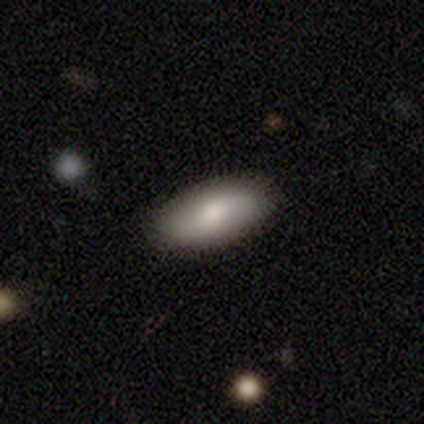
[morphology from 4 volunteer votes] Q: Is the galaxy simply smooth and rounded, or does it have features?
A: featured or disk — 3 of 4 (75%).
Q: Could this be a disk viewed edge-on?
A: no — 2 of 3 (67%).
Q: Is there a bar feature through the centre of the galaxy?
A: no — 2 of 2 (100%).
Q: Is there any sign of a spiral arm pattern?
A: no — 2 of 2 (100%).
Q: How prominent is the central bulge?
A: large — 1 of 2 (50%, tied with moderate).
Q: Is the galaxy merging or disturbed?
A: none — 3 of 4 (75%).